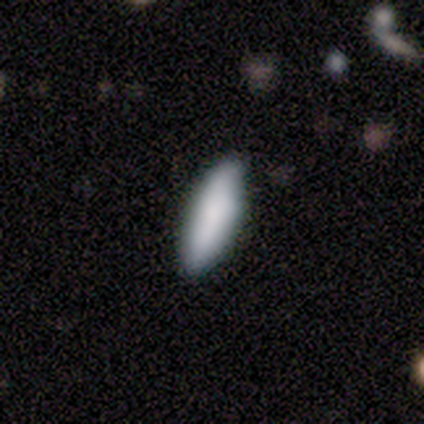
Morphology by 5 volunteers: type=smooth (60%); roundness=cigar-shaped (67%); merging=none (67%).